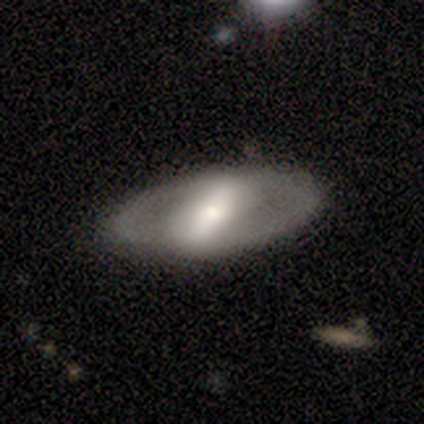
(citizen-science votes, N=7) A featured or disk galaxy (57%) with a strong bar (100%), no spiral arms (100%) and a large central bulge (33%, tied with moderate and small). Merging: none (71%).